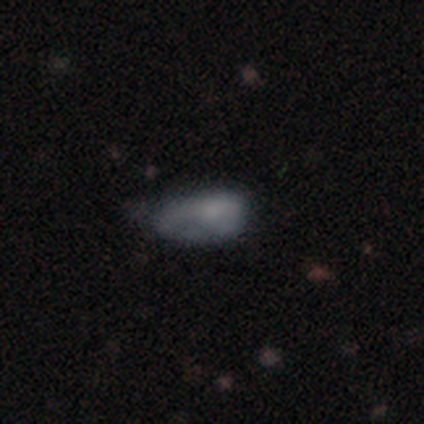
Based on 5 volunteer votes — Smooth or featured? smooth (40%, tied with featured or disk)
How rounded? in between (100%)
Merging? minor disturbance (75%)